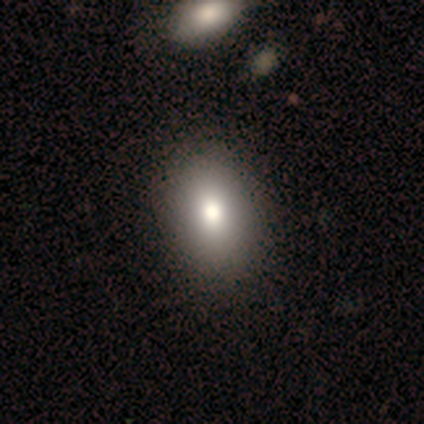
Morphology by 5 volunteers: Smooth or featured? smooth (60%)
How rounded? in between (67%)
Merging? none (50%, tied with minor disturbance)